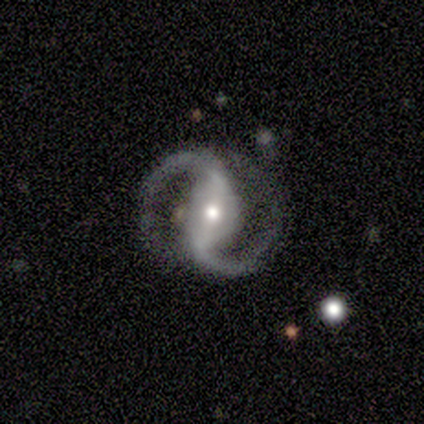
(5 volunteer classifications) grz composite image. It shows a featured or disk galaxy (100%) with a strong bar (60%), 2 (100%) medium (60%) spiral arms (100%) and a moderate central bulge (40%, tied with small). Merging: none (100%).